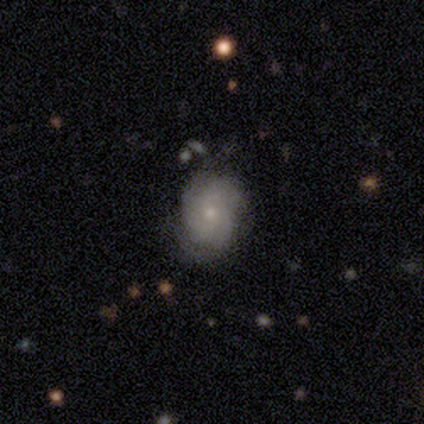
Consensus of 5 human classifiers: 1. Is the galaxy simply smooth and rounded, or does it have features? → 40% smooth (tied), 40% featured or disk (tied), 20% star or artifact.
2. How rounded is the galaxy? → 100% in between, 0% round, 0% cigar-shaped.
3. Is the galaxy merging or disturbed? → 100% none, 0% minor disturbance, 0% major disturbance, 0% merger.